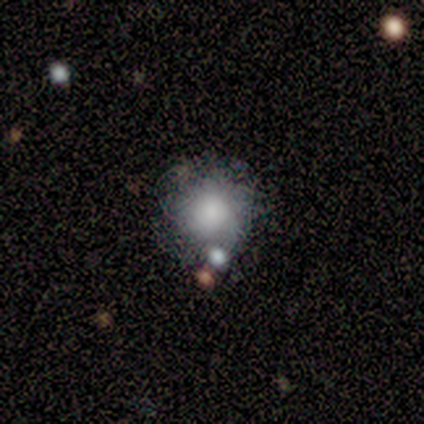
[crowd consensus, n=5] Overall: smooth (60%; featured or disk 40%). How rounded: round (100%). Merging: merger (60%; none 40%).